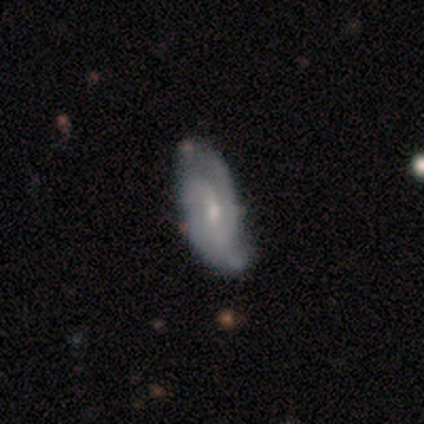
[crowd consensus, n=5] Smooth or featured? featured or disk (80%)
Edge-on disk? no (75%)
Bar? no (100%)
Spiral arms? yes (100%)
Spiral winding? medium (67%)
Spiral arm count? 2 (67%)
Bulge size? small (67%)
Merging? minor disturbance (60%)